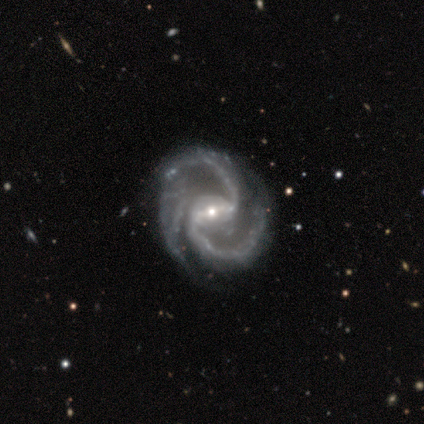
featured or disk 100%, smooth 0%, star or artifact 0%. Down the decision tree: edge-on disk — no (100%); bar — strong (50%, tied with weak); spiral arms — yes (100%); spiral arm count — 2 (100%); spiral winding — tight (50%, tied with medium); bulge size — small (75%); merging — none (50%, tied with major disturbance).